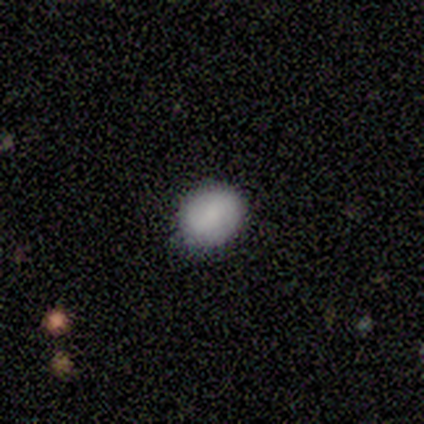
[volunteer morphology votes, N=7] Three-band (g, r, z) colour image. It shows a smooth galaxy with no disk features (86%) that is in between round and cigar-shaped (83%). Merging: none (100%).